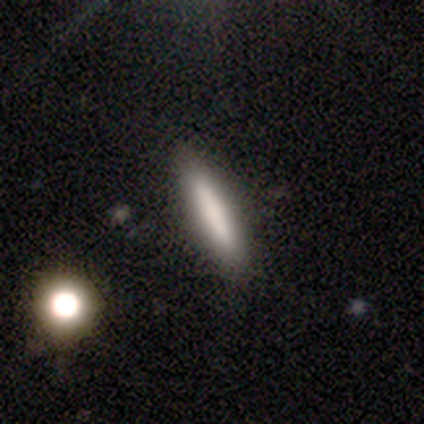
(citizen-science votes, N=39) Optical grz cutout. It shows a smooth galaxy with no disk features (82%) that is cigar-shaped (100%). Merging: none (86%).